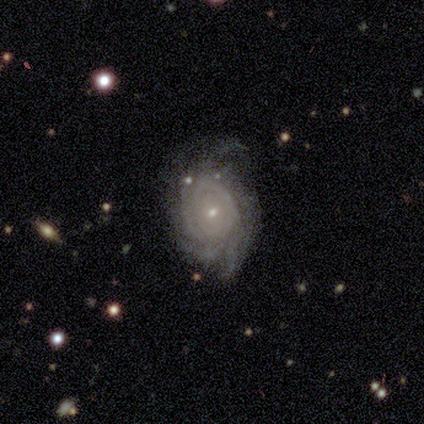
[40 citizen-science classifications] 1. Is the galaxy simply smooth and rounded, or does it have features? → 90% featured or disk, 8% star or artifact, 2% smooth.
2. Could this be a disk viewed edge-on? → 97% no, 3% yes.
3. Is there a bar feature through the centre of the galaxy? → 71% no, 23% weak, 6% strong.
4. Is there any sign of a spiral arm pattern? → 86% yes, 14% no.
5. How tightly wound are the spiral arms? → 73% tight, 13% medium, 13% loose.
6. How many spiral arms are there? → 43% can't tell, 27% 3, 13% 4, 10% more than 4, 7% 2, 0% 1.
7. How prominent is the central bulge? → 80% small, 14% moderate, 6% large, 0% dominant, 0% none.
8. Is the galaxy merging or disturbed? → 73% none, 14% minor disturbance, 11% major disturbance, 3% merger.